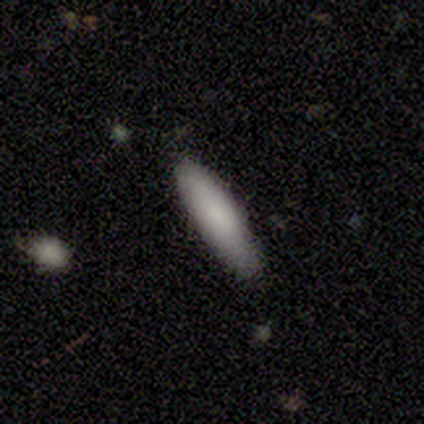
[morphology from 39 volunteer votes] A smooth galaxy with no disk features (92%) that is cigar-shaped (92%).

Vote fractions:
- Smooth or featured? smooth: 92% / star or artifact: 5% / featured or disk: 3%
- How rounded? cigar-shaped: 92% / in between: 8% / round: 0%
- Merging? none: 92% / minor disturbance: 8% / major disturbance: 0% / merger: 0%